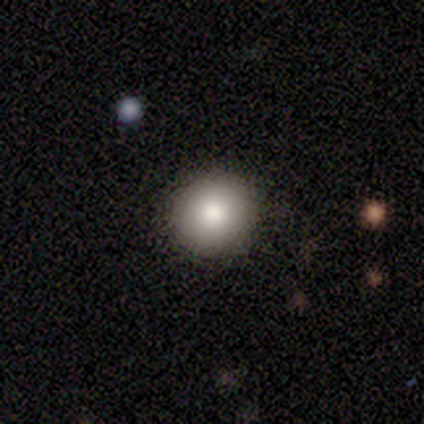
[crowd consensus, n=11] Volunteers were most divided on "smooth or featured": smooth: 91%, star or artifact: 9%, featured or disk: 0%. More confident: how rounded — round (100%); merging — none (100%).